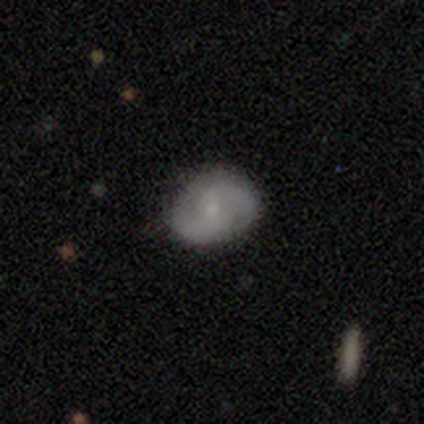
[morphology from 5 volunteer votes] type=featured or disk (60%); edge-on=no (100%); bar=no (67%); spiral arms=yes (100%); winding=medium (67%); arm count=2 (100%); bulge=small (100%); merging=none (80%).